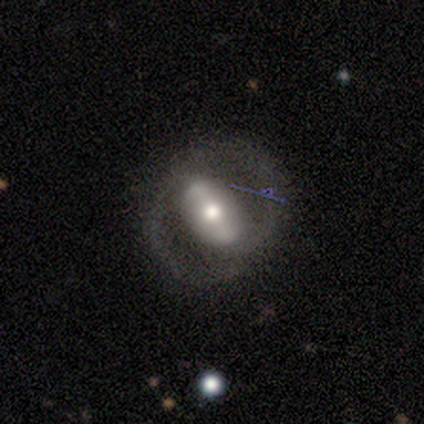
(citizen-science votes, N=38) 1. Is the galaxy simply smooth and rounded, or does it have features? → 84% featured or disk, 13% smooth, 3% star or artifact.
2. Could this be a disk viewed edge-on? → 100% no, 0% yes.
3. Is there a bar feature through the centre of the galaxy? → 56% strong, 22% weak, 22% no.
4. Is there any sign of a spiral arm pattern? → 72% yes, 28% no.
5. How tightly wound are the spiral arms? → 61% medium, 22% loose, 17% tight.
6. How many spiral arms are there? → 78% 2, 17% can't tell, 4% 1, 0% 3, 0% 4, 0% more than 4.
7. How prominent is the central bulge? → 69% moderate, 22% large, 6% small, 3% dominant, 0% none.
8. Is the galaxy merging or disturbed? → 78% none, 14% major disturbance, 8% minor disturbance, 0% merger.